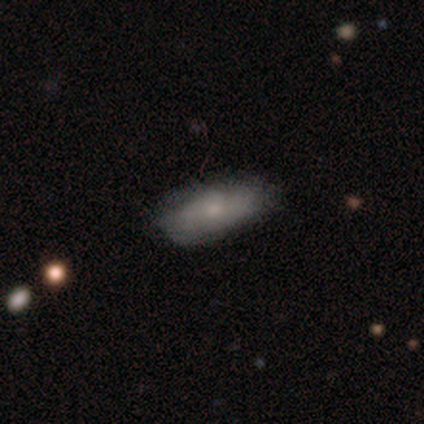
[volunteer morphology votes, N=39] Smooth or featured?
  - smooth: 74% *
  - featured or disk: 23%
  - star or artifact: 3%
How rounded?
  - in between: 90% *
  - cigar-shaped: 7%
  - round: 3%
Merging?
  - none: 74% *
  - minor disturbance: 16%
  - major disturbance: 11%
  - merger: 0%